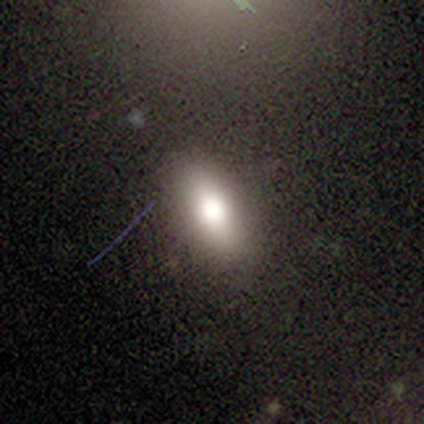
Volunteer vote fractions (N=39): smooth_or_featured: smooth (p=0.85) [alt: featured or disk p=0.10]
how_rounded: in between (p=0.88) [alt: round p=0.06]
merging: none (p=0.81) [alt: minor disturbance p=0.16]